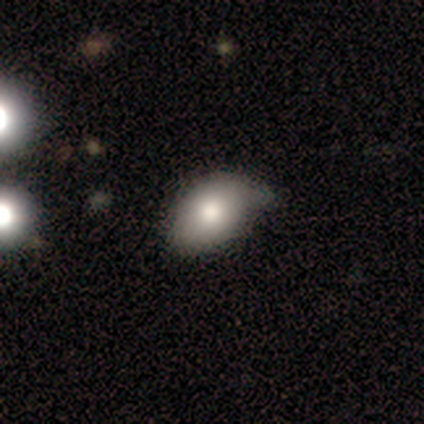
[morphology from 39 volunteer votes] Smooth or featured: smooth — 85% (featured or disk — 15%)
How rounded: in between — 85% (round — 12%)
Merging: none — 56% (minor disturbance — 41%)